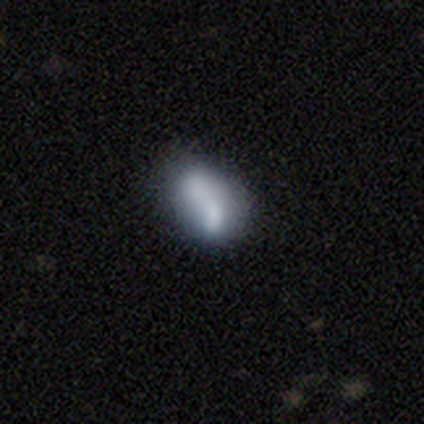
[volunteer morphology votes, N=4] A featured or disk galaxy (75%) with a weak bar (100%), 2 (50%, tied with can't tell) medium (50%, tied with loose) spiral arms (67%) and no central bulge (100%). Merging: none (50%).